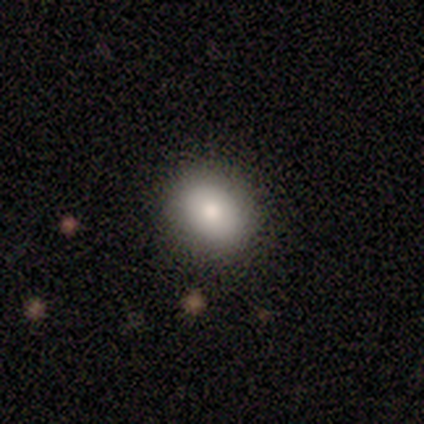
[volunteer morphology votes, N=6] smooth-or-featured: smooth: 50% (tied) | featured or disk: 50% (tied) | star or artifact: 0%
  how-rounded: round: 67% | in between: 33% | cigar-shaped: 0%
  merging: none: 100% | minor disturbance: 0% | major disturbance: 0% | merger: 0%